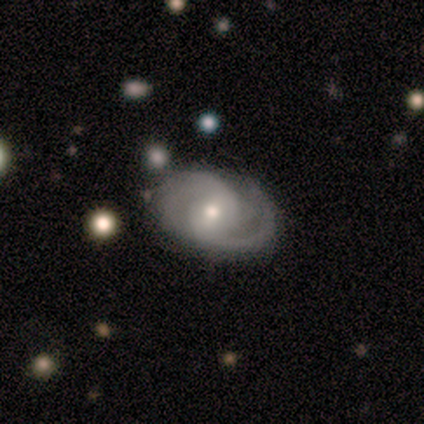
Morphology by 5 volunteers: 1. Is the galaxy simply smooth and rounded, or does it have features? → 100% featured or disk, 0% smooth, 0% star or artifact.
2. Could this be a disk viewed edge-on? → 100% no, 0% yes.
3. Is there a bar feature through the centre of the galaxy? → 60% no, 40% weak, 0% strong.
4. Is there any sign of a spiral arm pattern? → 100% yes, 0% no.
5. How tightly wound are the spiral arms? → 60% medium, 20% tight, 20% loose.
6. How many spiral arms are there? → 80% 2, 20% 3, 0% 1, 0% 4, 0% more than 4, 0% can't tell.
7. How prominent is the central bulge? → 80% moderate, 20% small, 0% dominant, 0% large, 0% none.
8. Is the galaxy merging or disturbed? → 60% none, 20% minor disturbance, 20% merger, 0% major disturbance.